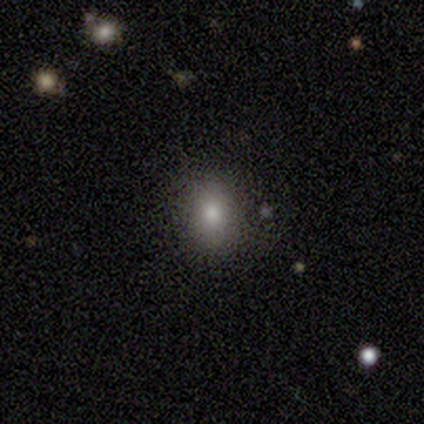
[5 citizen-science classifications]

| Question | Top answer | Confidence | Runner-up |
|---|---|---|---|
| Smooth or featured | smooth | 80% | star or artifact (20%) |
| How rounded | in between | 75% | round (25%) |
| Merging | none | 100% | — |